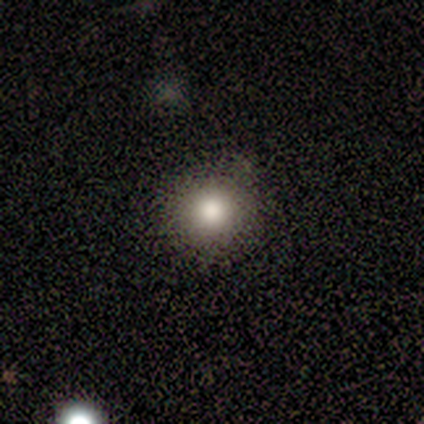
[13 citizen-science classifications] Smooth or featured: smooth — 46% (star or artifact — 31%)
How rounded: round — 100%
Merging: none — 89% (merger — 11%)